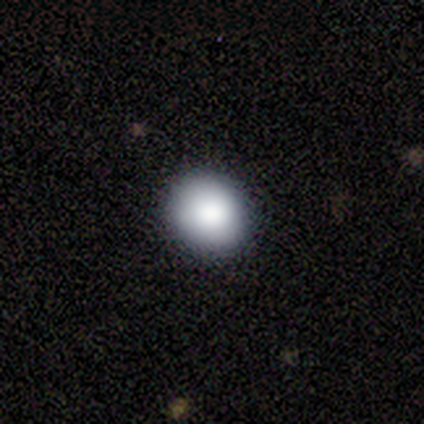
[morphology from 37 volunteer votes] smooth-or-featured: smooth: 86% | featured or disk: 8% | star or artifact: 5%
  how-rounded: round: 88% | in between: 12% | cigar-shaped: 0%
  merging: none: 89% | minor disturbance: 11% | major disturbance: 0% | merger: 0%